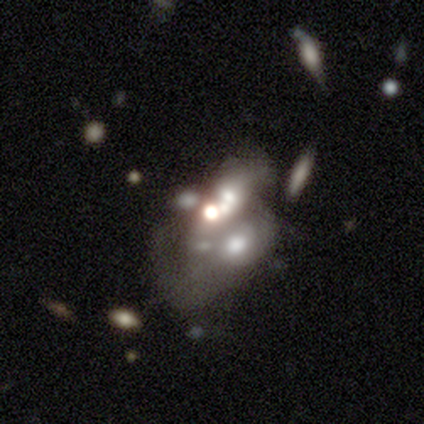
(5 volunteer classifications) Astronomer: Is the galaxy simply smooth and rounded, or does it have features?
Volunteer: smooth — 40%, tied with featured or disk at 40%.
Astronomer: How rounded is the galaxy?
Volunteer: round — 100%.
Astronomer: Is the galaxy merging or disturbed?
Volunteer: merger — 50%.